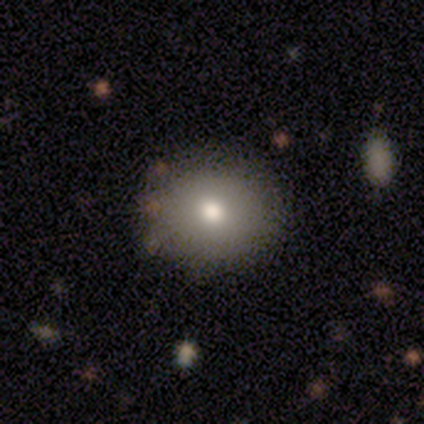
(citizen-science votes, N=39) Volunteers were most divided on "how rounded": round: 77%, in between: 23%, cigar-shaped: 0%. More confident: merging — none (89%); smooth or featured — smooth (77%).